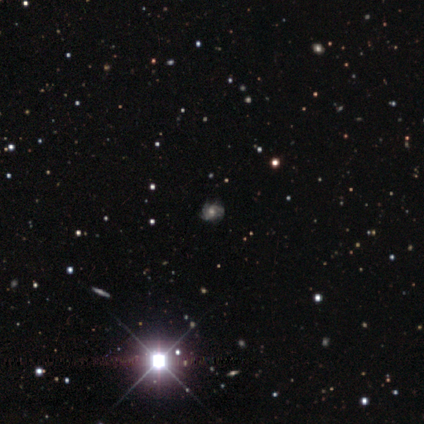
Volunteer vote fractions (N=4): Smooth or featured?
  - featured or disk: 50% *
  - smooth: 25%
  - star or artifact: 25%
Edge-on disk?
  - no: 100% *
  - yes: 0%
Bar?
  - no: 100% *
  - strong: 0%
  - weak: 0%
Spiral arms?
  - yes: 100% *
  - no: 0%
Spiral winding?
  - tight: 50% * (tied)
  - medium: 50% * (tied)
  - loose: 0%
Spiral arm count?
  - can't tell: 100% *
  - 1: 0%
  - 2: 0%
  - 3: 0%
  - 4: 0%
  - more than 4: 0%
Bulge size?
  - moderate: 100% *
  - dominant: 0%
  - large: 0%
  - small: 0%
  - none: 0%
Merging?
  - none: 100% *
  - minor disturbance: 0%
  - major disturbance: 0%
  - merger: 0%